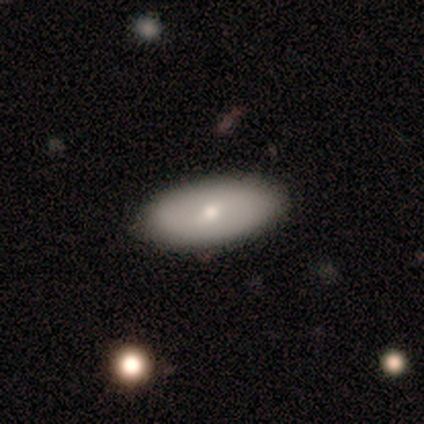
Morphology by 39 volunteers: Smooth or featured? 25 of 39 (64%) said smooth. How rounded? 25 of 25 (100%) said in between. Merging? 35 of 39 (90%) said none.